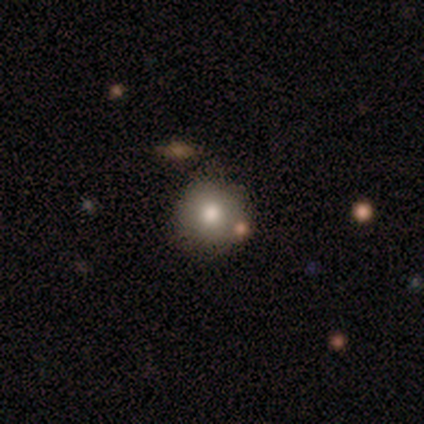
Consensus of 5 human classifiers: Smooth or featured? 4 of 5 (80%) said smooth. How rounded? 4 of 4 (100%) said round. Merging? 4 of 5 (80%) said none.